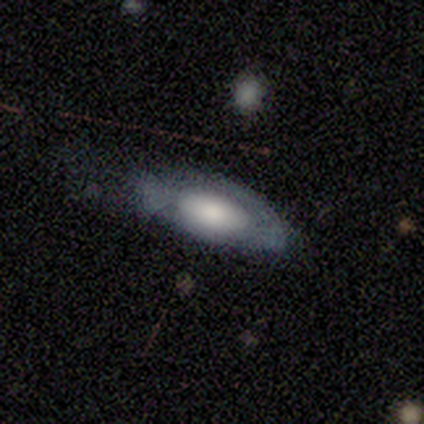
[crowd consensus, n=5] This appears to be a smooth galaxy with no disk features (60%) that is in between round and cigar-shaped (100%). Merging: minor disturbance (40%, tied with major disturbance).